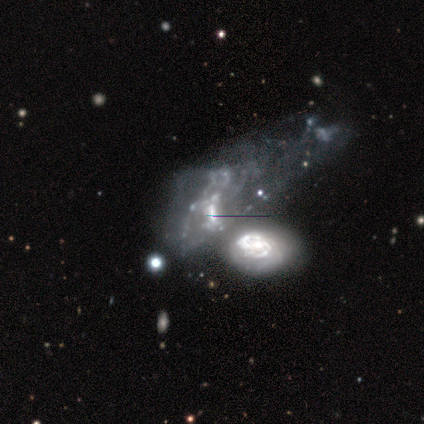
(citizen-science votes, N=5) This is clearly a featured or disk galaxy (80%). It is clearly not viewed edge-on (100%). Bar: possibly weak (50%). Spiral arm pattern: likely yes (75%). Spiral arm count: marginally 1 (33%, tied with 2 and can't tell). Spiral winding: likely loose (67%). Central bulge: possibly small (50%). Merging: likely merger (60%).